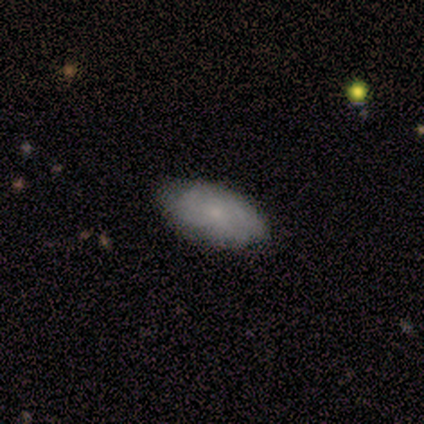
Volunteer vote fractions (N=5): A smooth galaxy with no disk features (80%) that is in between round and cigar-shaped (100%).

Vote fractions:
- Smooth or featured? smooth: 80% / featured or disk: 20% / star or artifact: 0%
- How rounded? in between: 100% / round: 0% / cigar-shaped: 0%
- Merging? none: 80% / minor disturbance: 20% / major disturbance: 0% / merger: 0%